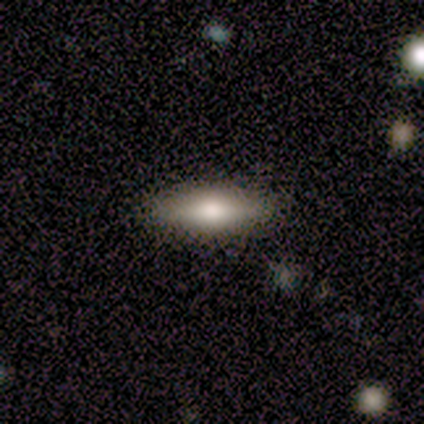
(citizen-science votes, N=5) Smooth or featured?
  - smooth: 80% *
  - featured or disk: 20%
  - star or artifact: 0%
How rounded?
  - in between: 50% * (tied)
  - cigar-shaped: 50% * (tied)
  - round: 0%
Merging?
  - none: 80% *
  - minor disturbance: 20%
  - major disturbance: 0%
  - merger: 0%